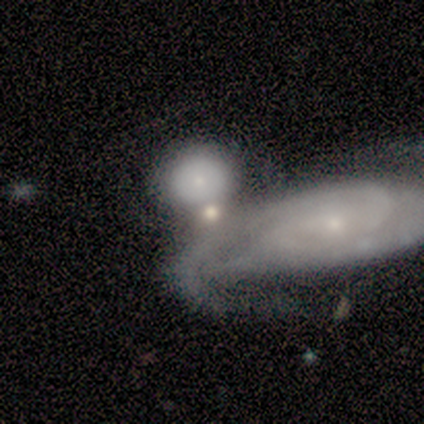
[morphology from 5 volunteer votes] smooth-or-featured: smooth: 60% | featured or disk: 20% | star or artifact: 20%
  how-rounded: round: 67% | in between: 33% | cigar-shaped: 0%
  merging: merger: 50% | none: 25% | major disturbance: 25% | minor disturbance: 0%